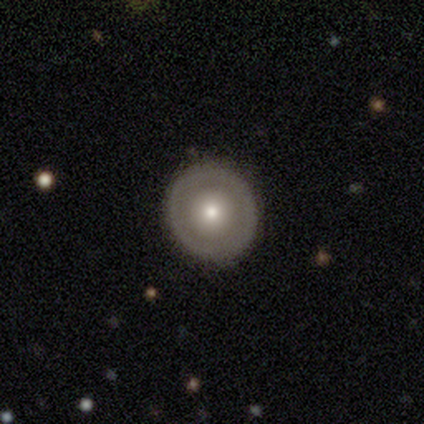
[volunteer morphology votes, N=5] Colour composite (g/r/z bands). It shows a smooth galaxy with no disk features (40%, tied with featured or disk) that is round (100%). Merging: none (100%).